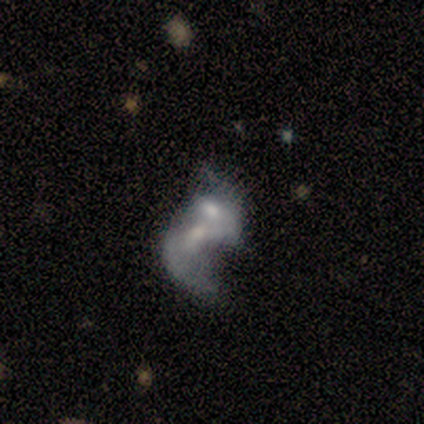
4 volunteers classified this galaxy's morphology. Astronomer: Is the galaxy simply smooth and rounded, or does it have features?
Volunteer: featured or disk — 75%.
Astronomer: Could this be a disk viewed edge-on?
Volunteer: no — 100%.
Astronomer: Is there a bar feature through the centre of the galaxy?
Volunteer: strong — 67%.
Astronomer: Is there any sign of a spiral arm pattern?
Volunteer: yes — 67%.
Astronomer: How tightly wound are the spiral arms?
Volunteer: medium — 50%, tied with loose at 50%.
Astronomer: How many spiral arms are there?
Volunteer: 2 — 100%.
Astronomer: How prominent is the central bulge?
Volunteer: small — 67%.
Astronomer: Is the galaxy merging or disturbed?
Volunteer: merger — 50%.